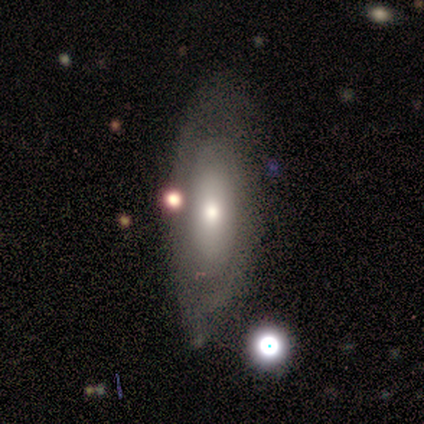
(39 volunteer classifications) This is likely a featured or disk galaxy (64%). It is clearly not viewed edge-on (80%). Bar: clearly no (85%). Spiral arm pattern: likely no (70%). Central bulge: likely moderate (60%). Merging: likely none (65%).